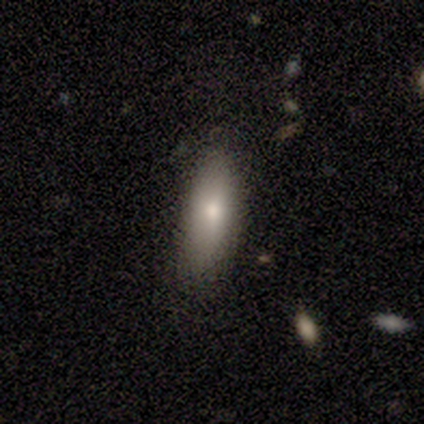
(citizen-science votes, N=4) Q: Smooth or featured?
A: smooth (100%)
Q: How rounded?
A: in between (75%); runner-up: cigar-shaped (25%)
Q: Merging?
A: none (50%); tied with: minor disturbance (50%)